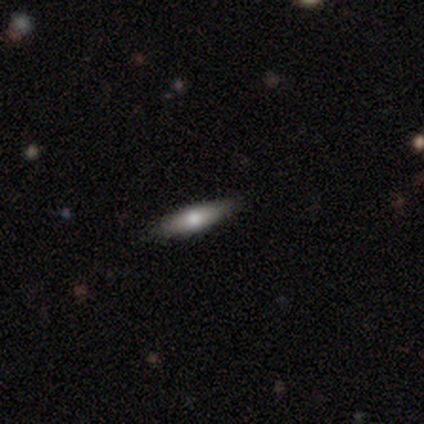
Smooth or featured?
  - featured or disk: 60% *
  - smooth: 40%
  - star or artifact: 0%
Edge-on disk?
  - yes: 100% *
  - no: 0%
Edge-on bulge?
  - rounded: 100% *
  - boxy: 0%
  - none: 0%
Merging?
  - none: 100% *
  - minor disturbance: 0%
  - major disturbance: 0%
  - merger: 0%